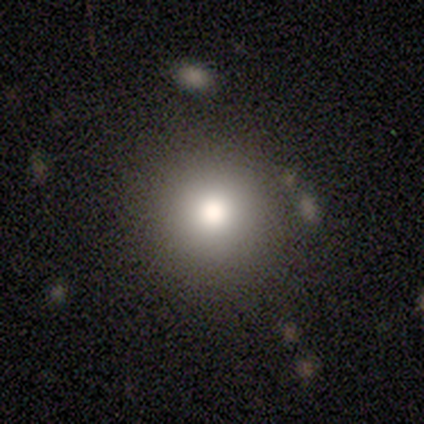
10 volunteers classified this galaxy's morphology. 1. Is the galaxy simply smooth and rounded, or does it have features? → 80% smooth, 10% featured or disk, 10% star or artifact.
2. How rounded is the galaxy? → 88% round, 12% cigar-shaped, 0% in between.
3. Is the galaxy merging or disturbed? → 89% none, 11% major disturbance, 0% minor disturbance, 0% merger.